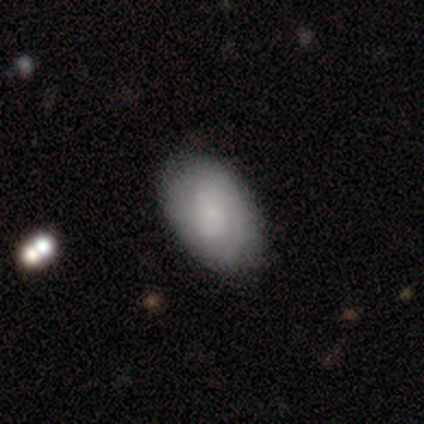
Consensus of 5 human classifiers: smooth_or_featured: featured or disk (p=0.60) [alt: smooth p=0.40]
disk_edge_on: no (p=1.00)
bar: no (p=1.00)
has_spiral_arms: yes (p=1.00)
spiral_winding: medium (p=0.67) [alt: tight p=0.33]
spiral_arm_count: can't tell (p=0.67) [alt: 1 p=0.33]
bulge_size: small (p=0.67) [alt: none p=0.33]
merging: none (p=0.60) [alt: minor disturbance p=0.40]